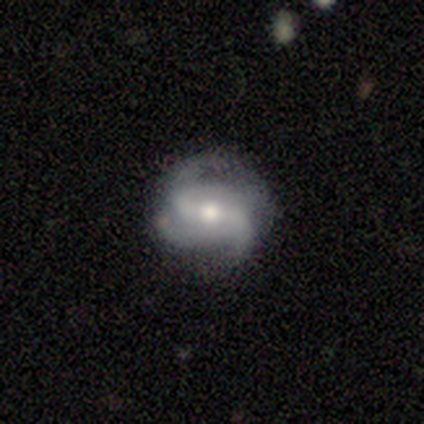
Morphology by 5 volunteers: Smooth or featured? featured or disk (60%)
Edge-on disk? no (67%)
Bar? weak (50%, tied with no)
Spiral arms? yes (100%)
Spiral winding? loose (100%)
Spiral arm count? 2 (50%, tied with 3)
Bulge size? moderate (50%, tied with small)
Merging? none (80%)